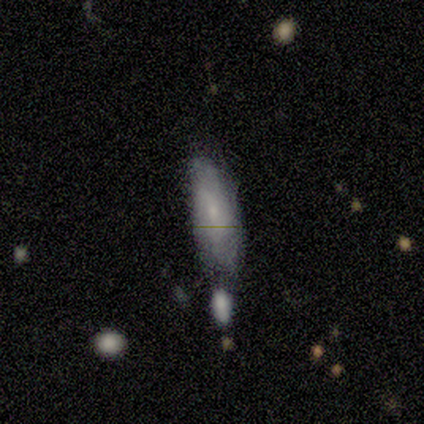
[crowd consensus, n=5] Smooth or featured? smooth (80%)
How rounded? in between (75%)
Merging? minor disturbance (60%)